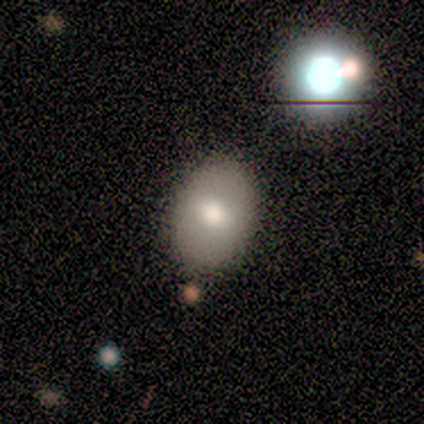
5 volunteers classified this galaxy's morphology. Q: Smooth or featured?
A: smooth (80%); runner-up: featured or disk (20%)
Q: How rounded?
A: round (50%); tied with: in between (50%)
Q: Merging?
A: none (80%); runner-up: merger (20%)